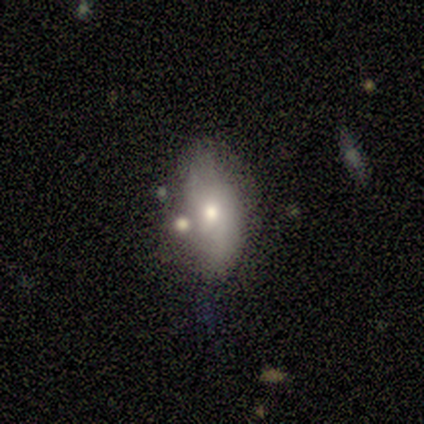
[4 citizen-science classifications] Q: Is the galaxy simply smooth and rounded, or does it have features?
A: smooth — 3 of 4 (75%).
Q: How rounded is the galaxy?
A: in between — 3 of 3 (100%).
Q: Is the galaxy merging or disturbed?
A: none — 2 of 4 (50%, tied with merger).